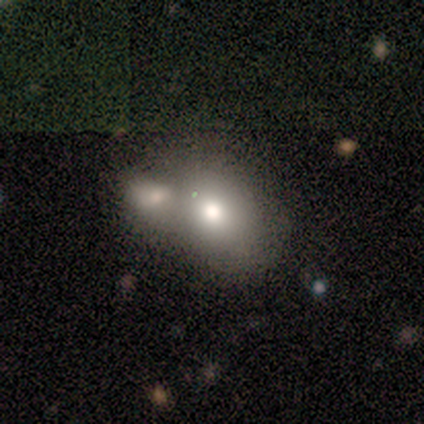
Smooth or featured? 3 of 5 (60%) said smooth. How rounded? 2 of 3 (67%) said round. Merging? 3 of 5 (60%) said merger.